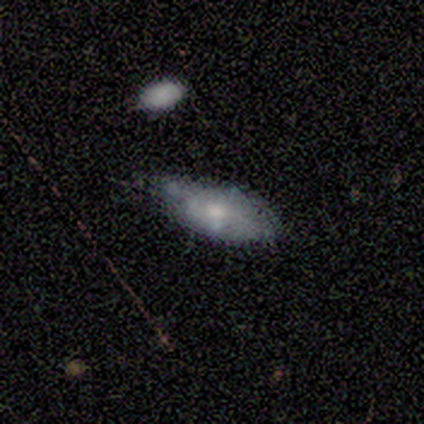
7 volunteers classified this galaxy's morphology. Smooth or featured? 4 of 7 (57%) said smooth. How rounded? 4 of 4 (100%) said in between. Merging? 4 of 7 (57%) said minor disturbance.